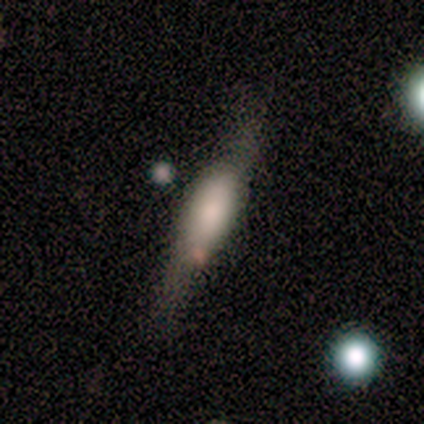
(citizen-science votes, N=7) Q: Smooth or featured?
A: smooth (71%); runner-up: featured or disk (29%)
Q: How rounded?
A: cigar-shaped (80%); runner-up: in between (20%)
Q: Merging?
A: none (86%); runner-up: minor disturbance (14%)